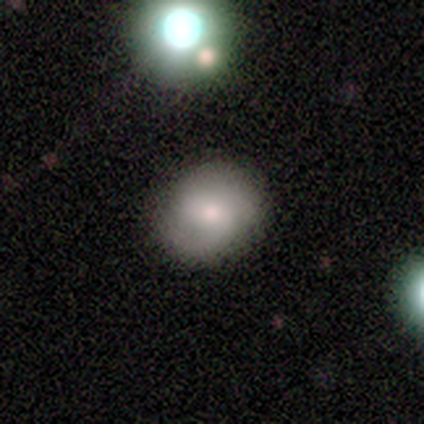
A smooth galaxy with no disk features (58%) that is round (64%). Merging: none (76%).